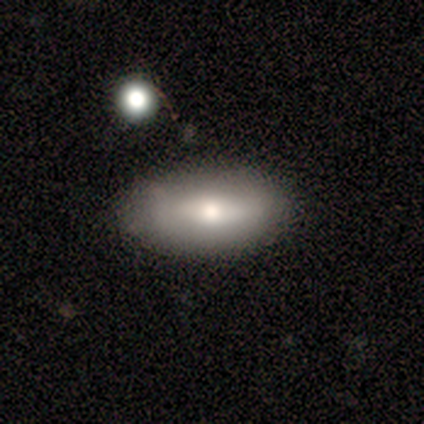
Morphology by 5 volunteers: Smooth or featured? smooth (80%)
How rounded? in between (100%)
Merging? none (80%)